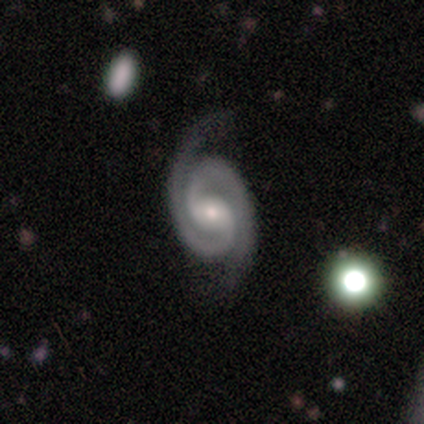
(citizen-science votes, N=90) smooth_or_featured: featured or disk (p=0.96) [alt: smooth p=0.02]
disk_edge_on: no (p=0.99) [alt: yes p=0.01]
bar: weak (p=0.52) [alt: no p=0.25]
has_spiral_arms: yes (p=1.00)
spiral_winding: tight (p=0.71) [alt: medium p=0.26]
spiral_arm_count: 2 (p=0.98) [alt: 1 p=0.01]
bulge_size: small (p=0.66) [alt: moderate p=0.27]
merging: none (p=0.81) [alt: minor disturbance p=0.16]